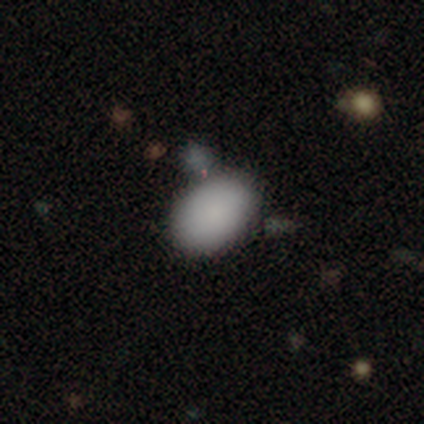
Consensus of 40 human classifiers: Volunteers were most divided on "merging": none: 58%, minor disturbance: 19%, merger: 19%, major disturbance: 3%. More confident: how rounded — in between (94%); smooth or featured — smooth (85%).